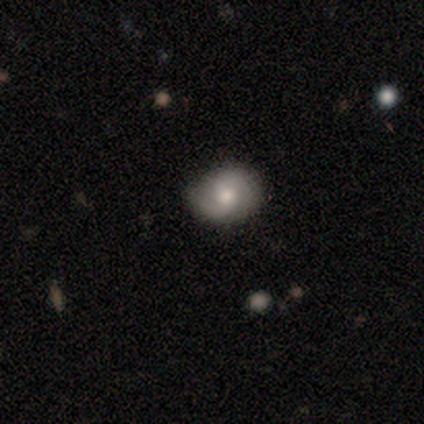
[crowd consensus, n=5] Morphology: type=smooth (60%); roundness=round (33%, tied with in between and cigar-shaped); merging=none (60%).